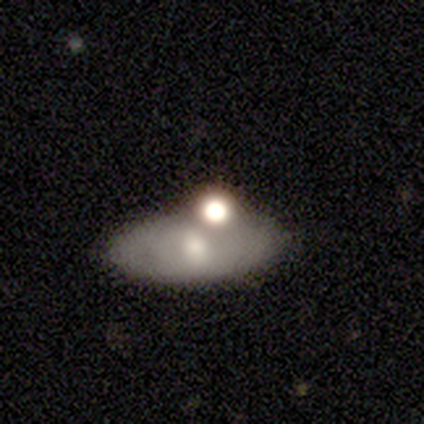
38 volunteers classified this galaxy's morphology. smooth 50%, featured or disk 34%, star or artifact 16%. Down the decision tree: how rounded — in between (84%); merging — none (47%).